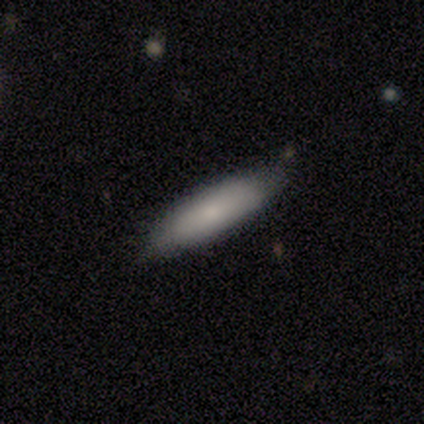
Smooth or featured?
  - smooth: 100% *
  - featured or disk: 0%
  - star or artifact: 0%
How rounded?
  - cigar-shaped: 100% *
  - round: 0%
  - in between: 0%
Merging?
  - none: 80% *
  - minor disturbance: 20%
  - major disturbance: 0%
  - merger: 0%